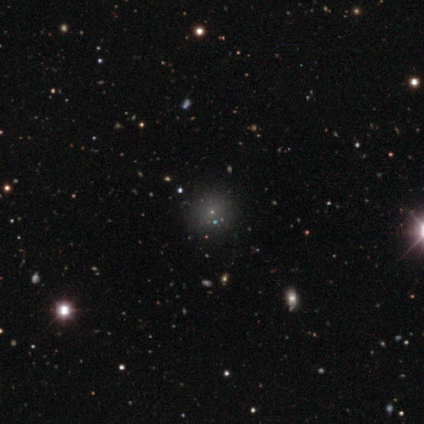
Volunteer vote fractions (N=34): This is marginally a smooth galaxy (44%). How rounded: clearly round (87%). Merging: clearly none (91%).